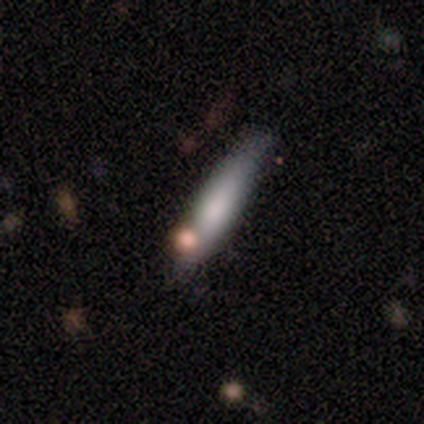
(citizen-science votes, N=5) This is clearly a smooth galaxy (80%). How rounded: likely cigar-shaped (75%). Merging: possibly minor disturbance (50%).